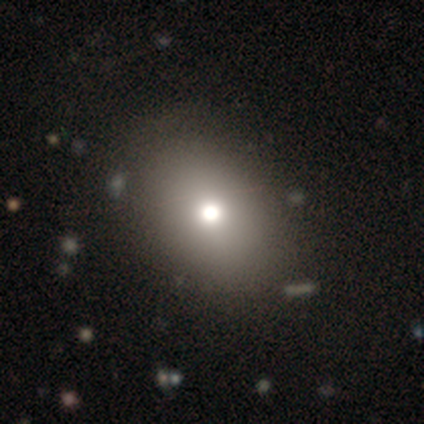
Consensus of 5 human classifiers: Morphology: type=smooth (80%); roundness=round (50%, tied with in between); merging=none (100%).